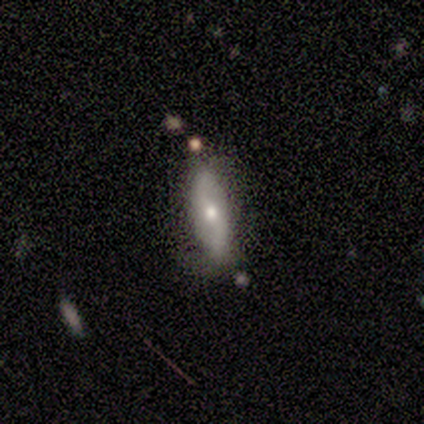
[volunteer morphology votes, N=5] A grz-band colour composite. It shows a featured or disk galaxy (80%) with a weak bar (100%), 2 (100%) loose (100%) spiral arms (67%) and a moderate central bulge (100%). Merging: none (60%).